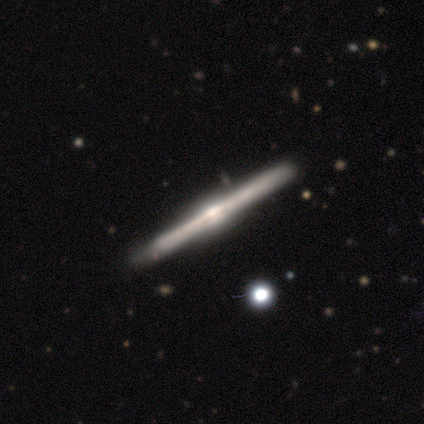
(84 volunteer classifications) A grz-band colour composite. It shows a featured or disk galaxy (89%) viewed edge-on (100%) with a rounded central bulge (76%). Merging: none (80%).